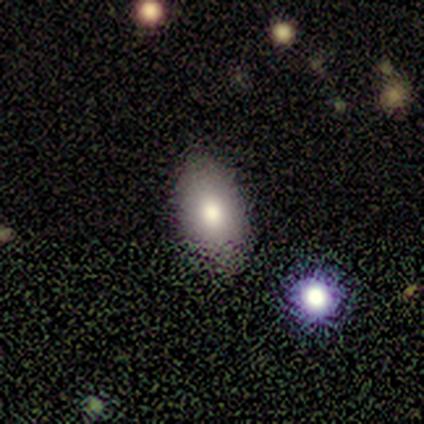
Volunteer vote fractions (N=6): This appears to be a smooth galaxy with no disk features (100%) that is in between round and cigar-shaped (83%). Merging: none (83%).